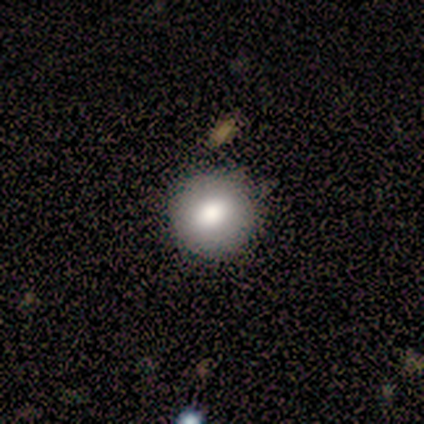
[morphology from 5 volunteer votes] Overall: smooth (80%). How rounded: round (100%). Merging: none (100%).